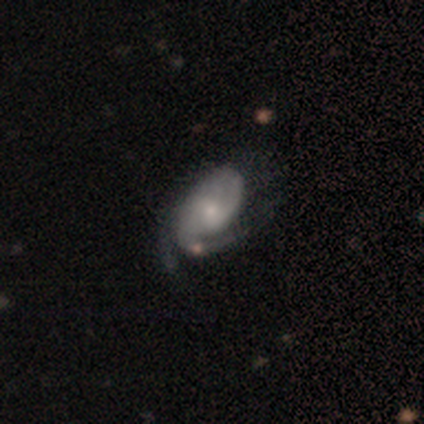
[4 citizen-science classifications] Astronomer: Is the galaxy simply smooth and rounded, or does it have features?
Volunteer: smooth — 50%, tied with featured or disk at 50%.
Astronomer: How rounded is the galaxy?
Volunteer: in between — 100%.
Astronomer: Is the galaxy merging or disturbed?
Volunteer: major disturbance — 50%.